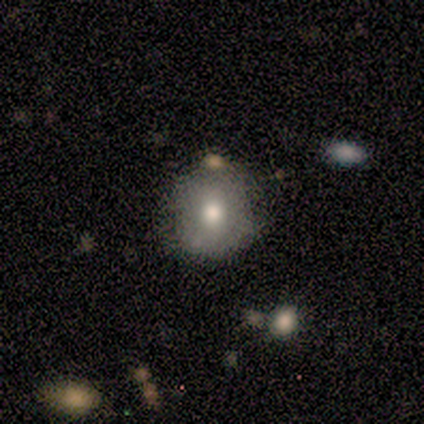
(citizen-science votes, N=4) Overall: smooth (100%). How rounded: round (100%). Merging: none (75%).